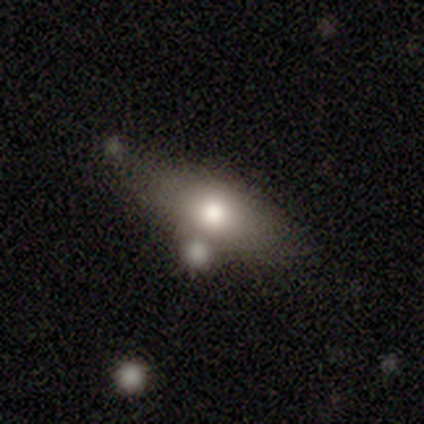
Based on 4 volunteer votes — smooth-or-featured: featured or disk: 50% | smooth: 25% | star or artifact: 25%
  disk-edge-on: no: 100% | yes: 0%
    bar: no: 100% | strong: 0% | weak: 0%
    has-spiral-arms: no: 100% | yes: 0%
    bulge-size: large: 50% (tied) | moderate: 50% (tied) | dominant: 0% | small: 0% | none: 0%
  merging: none: 67% | minor disturbance: 33% | major disturbance: 0% | merger: 0%